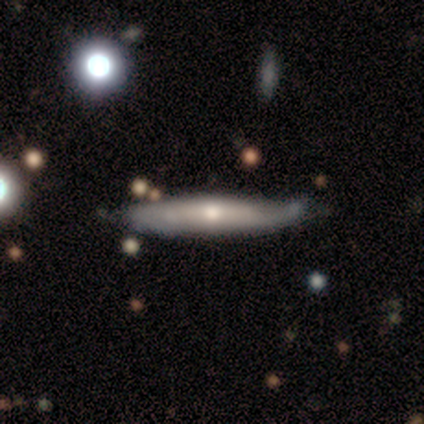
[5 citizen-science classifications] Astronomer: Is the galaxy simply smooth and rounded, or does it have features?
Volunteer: featured or disk — 80%.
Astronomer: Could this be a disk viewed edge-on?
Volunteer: yes — 50%, tied with no at 50%.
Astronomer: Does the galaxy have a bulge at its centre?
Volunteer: none — 50%, tied with rounded at 50%.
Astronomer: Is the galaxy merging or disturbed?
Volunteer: none — 50%, tied with minor disturbance at 50%.